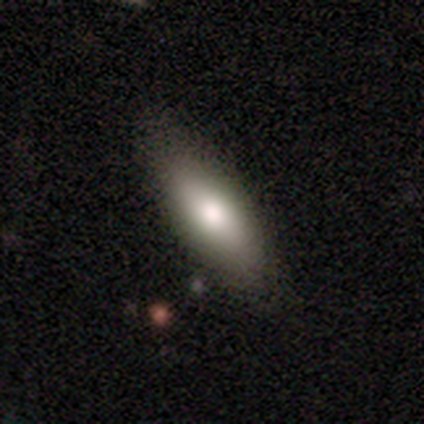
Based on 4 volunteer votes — Smooth or featured? smooth (75%)
How rounded? cigar-shaped (67%)
Merging? none (75%)